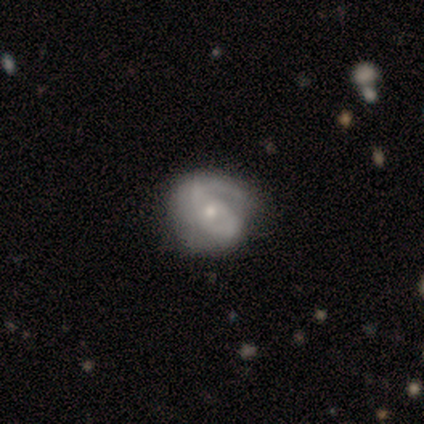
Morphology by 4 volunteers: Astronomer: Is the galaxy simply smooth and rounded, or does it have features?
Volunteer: featured or disk — 100%.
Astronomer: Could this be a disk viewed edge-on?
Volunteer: no — 100%.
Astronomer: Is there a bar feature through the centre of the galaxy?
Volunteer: weak — 50%, tied with no at 50%.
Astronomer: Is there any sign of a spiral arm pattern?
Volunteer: yes — 100%.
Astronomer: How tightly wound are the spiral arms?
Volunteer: loose — 75%.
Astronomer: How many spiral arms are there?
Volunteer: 1 — 50%.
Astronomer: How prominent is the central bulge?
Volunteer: moderate — 50%, tied with small at 50%.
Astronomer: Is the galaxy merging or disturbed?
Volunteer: none — 50%.